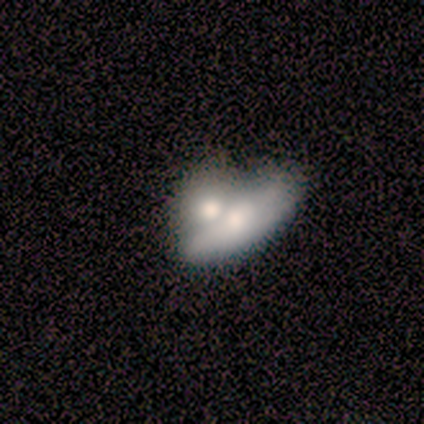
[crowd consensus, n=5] A featured or disk galaxy (60%) viewed edge-on (67%) with a rounded central bulge (100%). Merging: merger (80%).